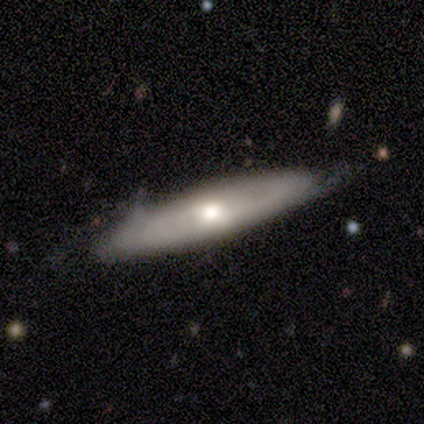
smooth_or_featured: smooth (p=0.80) [alt: featured or disk p=0.20]
how_rounded: in between (p=0.50) [tied with: cigar-shaped p=0.50]
merging: none (p=0.80) [alt: minor disturbance p=0.20]